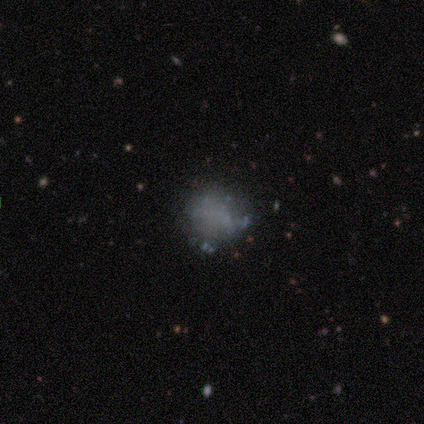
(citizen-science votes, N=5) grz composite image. It shows a star or artifact, not a galaxy (60%).